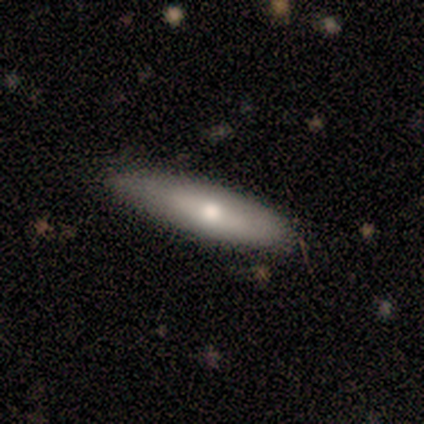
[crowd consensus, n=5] This is clearly a smooth galaxy (100%). How rounded: clearly cigar-shaped (80%). Merging: likely none (60%).